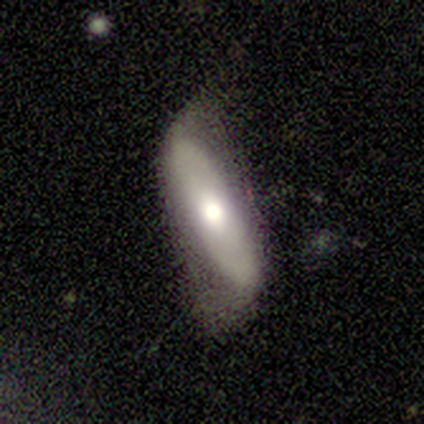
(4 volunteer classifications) This is possibly a smooth galaxy (50%, tied with featured or disk). How rounded: possibly in between (50%, tied with cigar-shaped). Merging: likely minor disturbance (75%).